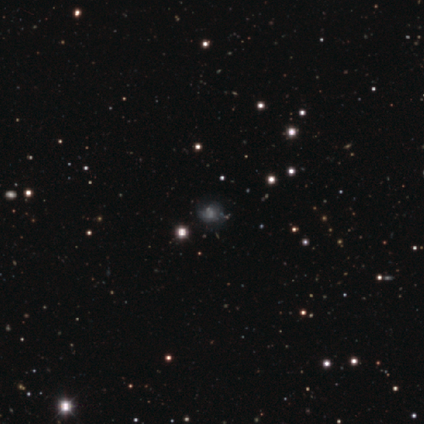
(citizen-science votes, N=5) A smooth galaxy with no disk features (40%, tied with star or artifact) that is round (50%, tied with in between). Merging: none (67%).